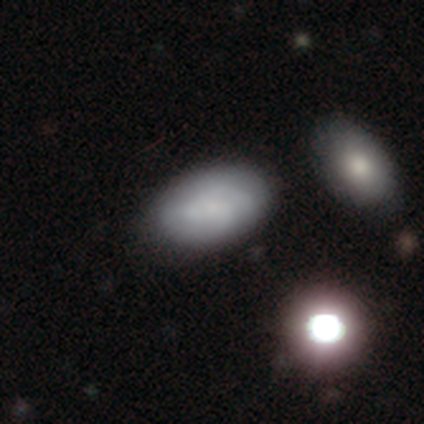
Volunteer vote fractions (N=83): smooth_or_featured: smooth (p=0.60) [alt: featured or disk p=0.29]
how_rounded: in between (p=0.96) [alt: round p=0.02]
merging: none (p=0.72) [alt: minor disturbance p=0.22]